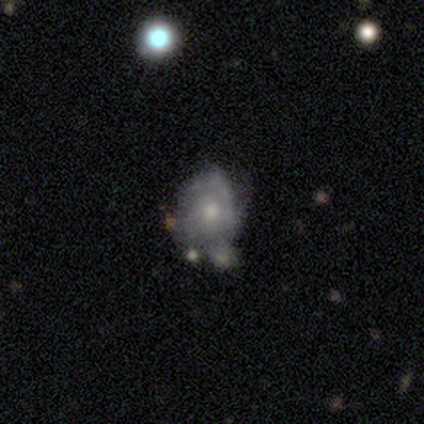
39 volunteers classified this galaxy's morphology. Smooth or featured: featured or disk — 64% (smooth — 31%)
Edge-on disk: no — 100%
Bar: no — 88% (weak — 12%)
Spiral arms: yes — 52% (no — 48%)
Spiral winding: tight — 62% (medium — 23%)
Spiral arm count: can't tell — 62% (1 — 15%)
Bulge size: small — 48% (moderate — 40%)
Merging: minor disturbance — 49% (merger — 27%)